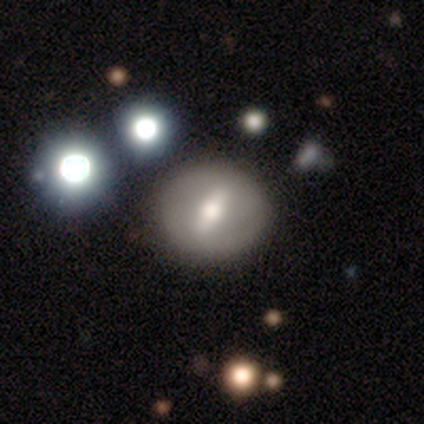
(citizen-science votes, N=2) A featured or disk galaxy (50%, tied with star or artifact) with a strong bar (100%), no spiral arms (100%) and a dominant central bulge (100%).

Vote fractions:
- Smooth or featured? featured or disk: 50% (tied) / star or artifact: 50% (tied) / smooth: 0%
- Edge-on disk? no: 100% / yes: 0%
- Bar? strong: 100% / weak: 0% / no: 0%
- Spiral arms? no: 100% / yes: 0%
- Bulge size? dominant: 100% / large: 0% / moderate: 0% / small: 0% / none: 0%
- Merging? none: 100% / minor disturbance: 0% / major disturbance: 0% / merger: 0%